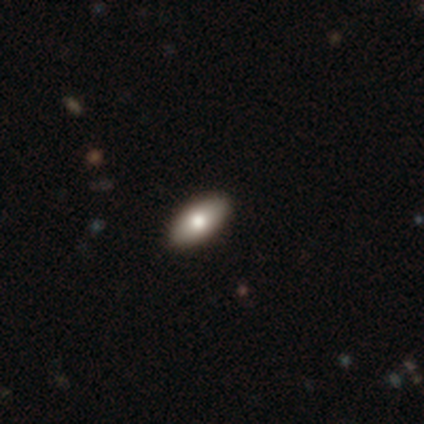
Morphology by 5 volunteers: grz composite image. It shows a smooth galaxy with no disk features (80%) that is in between round and cigar-shaped (100%). Merging: none (100%).